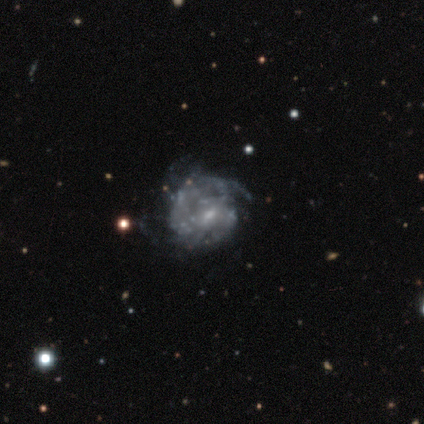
Morphology: type=featured or disk (80%); edge-on=no (100%); bar=no (50%); spiral arms=yes (62%); winding=medium (80%); arm count=3 (40%); bulge=small (75%); merging=none (67%).